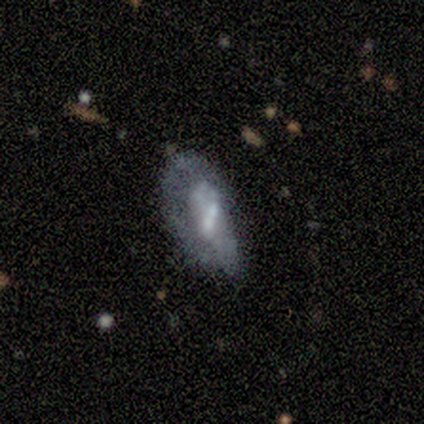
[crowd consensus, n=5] Volunteers were most divided on "smooth or featured": featured or disk: 60%, smooth: 40%, star or artifact: 0%. More confident: edge-on disk — no (100%); bar — no (100%); spiral arms — no (100%); bulge size — moderate (67%); merging — minor disturbance (60%).